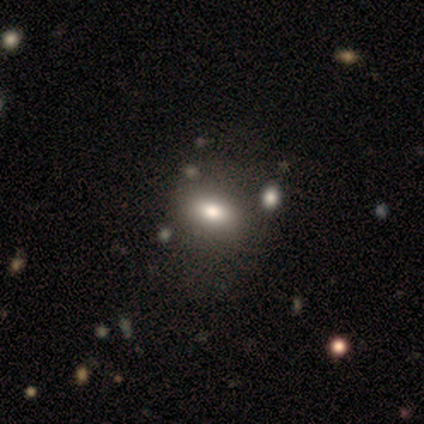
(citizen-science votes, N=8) Q: Smooth or featured?
A: smooth (88%); runner-up: star or artifact (12%)
Q: How rounded?
A: in between (71%); runner-up: round (14%)
Q: Merging?
A: none (71%); runner-up: major disturbance (14%)